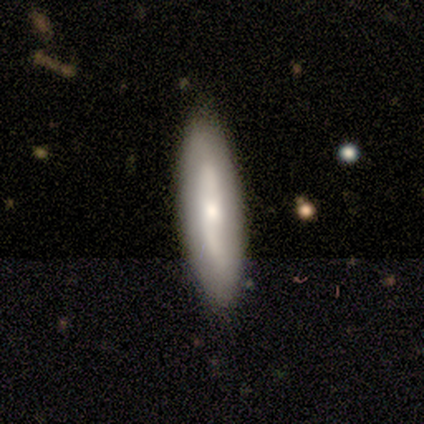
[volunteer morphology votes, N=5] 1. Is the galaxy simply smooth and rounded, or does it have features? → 60% smooth, 40% featured or disk, 0% star or artifact.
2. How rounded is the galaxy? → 67% in between, 33% cigar-shaped, 0% round.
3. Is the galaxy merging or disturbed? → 80% none, 20% minor disturbance, 0% major disturbance, 0% merger.